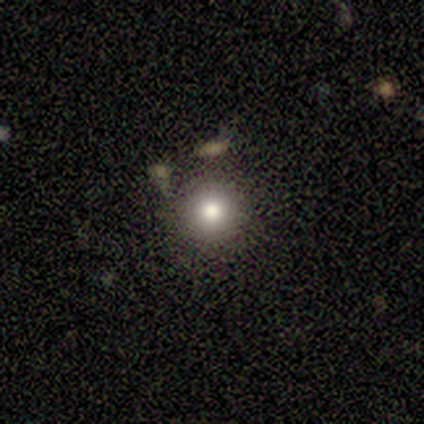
Smooth or featured?
  - smooth: 100% *
  - featured or disk: 0%
  - star or artifact: 0%
How rounded?
  - round: 100% *
  - in between: 0%
  - cigar-shaped: 0%
Merging?
  - none: 40% * (tied)
  - merger: 40% * (tied)
  - minor disturbance: 20%
  - major disturbance: 0%